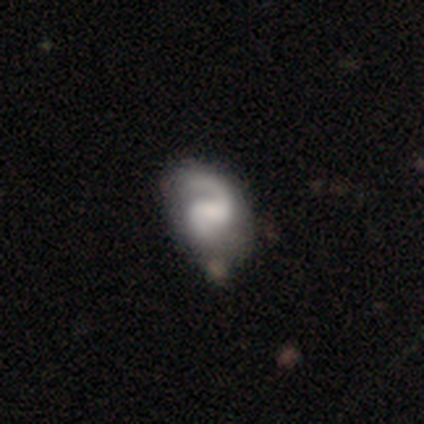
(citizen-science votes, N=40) Smooth or featured?
  - featured or disk: 88% *
  - smooth: 10%
  - star or artifact: 2%
Edge-on disk?
  - no: 100% *
  - yes: 0%
Bar?
  - weak: 49% *
  - no: 29%
  - strong: 23%
Spiral arms?
  - yes: 94% *
  - no: 6%
Spiral winding?
  - tight: 42% *
  - medium: 36%
  - loose: 21%
Spiral arm count?
  - 2: 67% *
  - 1: 27%
  - can't tell: 6%
  - 3: 0%
  - 4: 0%
  - more than 4: 0%
Bulge size?
  - small: 31% *
  - none: 29%
  - moderate: 26%
  - large: 14%
  - dominant: 0%
Merging?
  - none: 56% *
  - minor disturbance: 15%
  - major disturbance: 8%
  - merger: 0%